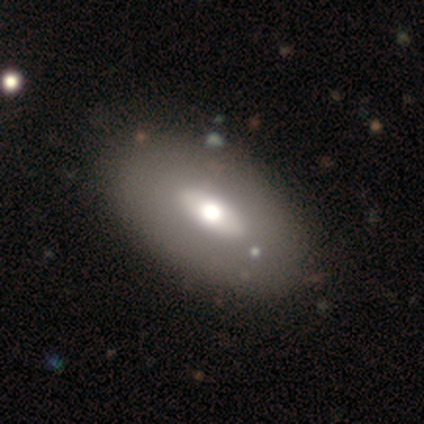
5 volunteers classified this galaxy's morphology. A smooth galaxy with no disk features (60%) that is in between round and cigar-shaped (100%).

Vote fractions:
- Smooth or featured? smooth: 60% / featured or disk: 40% / star or artifact: 0%
- How rounded? in between: 100% / round: 0% / cigar-shaped: 0%
- Merging? none: 100% / minor disturbance: 0% / major disturbance: 0% / merger: 0%